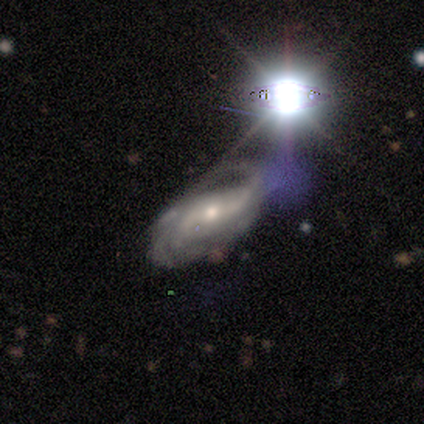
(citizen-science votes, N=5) A featured or disk galaxy (100%) with a weak bar (60%), 2 (80%) medium (60%) spiral arms (100%) and a small central bulge (60%). Merging: none (40%, tied with major disturbance).